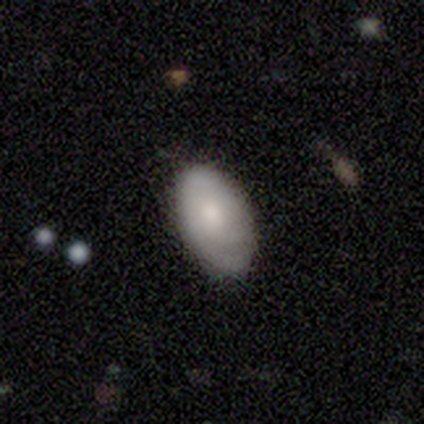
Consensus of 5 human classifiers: Smooth or featured: smooth — 100%
How rounded: in between — 100%
Merging: none — 80% (minor disturbance — 20%)